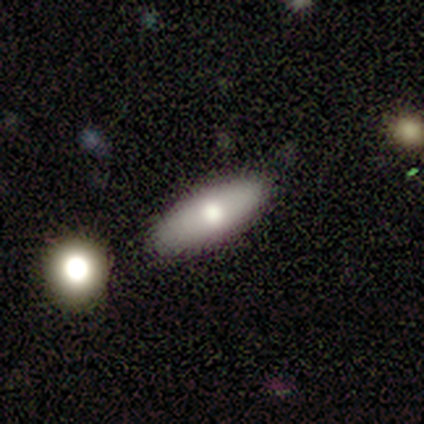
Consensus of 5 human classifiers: Smooth or featured: smooth — 60% (featured or disk — 20%)
How rounded: cigar-shaped — 67% (in between — 33%)
Merging: none — 100%